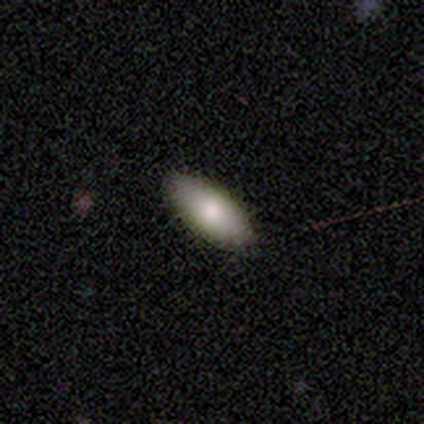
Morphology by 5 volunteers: Q: Smooth or featured?
A: smooth (100%)
Q: How rounded?
A: in between (80%); runner-up: cigar-shaped (20%)
Q: Merging?
A: none (80%); runner-up: minor disturbance (20%)